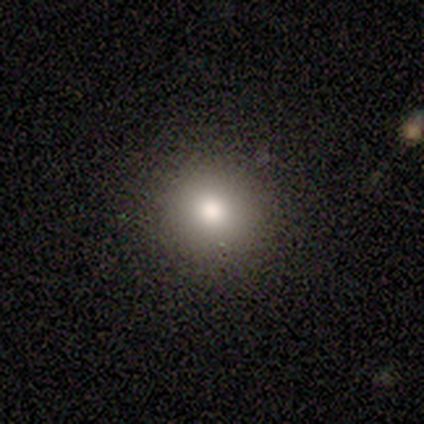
smooth 100%, featured or disk 0%, star or artifact 0%. Down the decision tree: how rounded — round (100%); merging — none (100%).